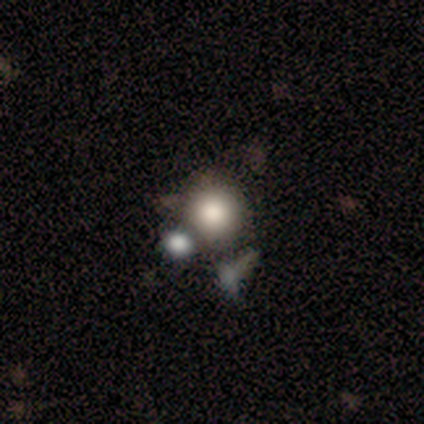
A smooth galaxy with no disk features (79%) that is round (87%).

Vote fractions:
- Smooth or featured? smooth: 79% / star or artifact: 13% / featured or disk: 8%
- How rounded? round: 87% / in between: 7% / cigar-shaped: 7%
- Merging? none: 58% / merger: 18% / minor disturbance: 15% / major disturbance: 9%